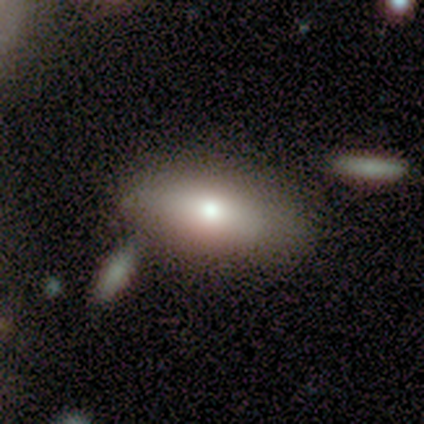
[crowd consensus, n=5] Q: Smooth or featured?
A: smooth (80%); runner-up: featured or disk (20%)
Q: How rounded?
A: in between (50%); runner-up: round (25%)
Q: Merging?
A: none (60%); runner-up: major disturbance (20%)